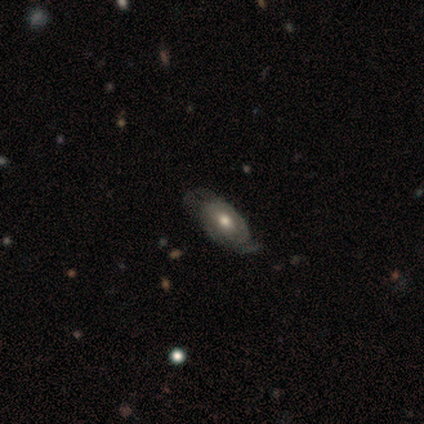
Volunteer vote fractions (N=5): Volunteers were most divided on "smooth or featured": smooth: 60%, featured or disk: 40%, star or artifact: 0%. More confident: how rounded — in between (100%); merging — minor disturbance (60%).